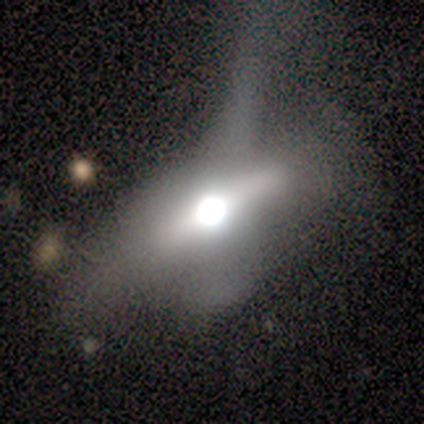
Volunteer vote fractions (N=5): Overall: featured or disk (40%, tied with star or artifact). Edge-on disk: yes (100%). Edge-on bulge: rounded (100%). Merging: major disturbance (67%; minor disturbance 33%).